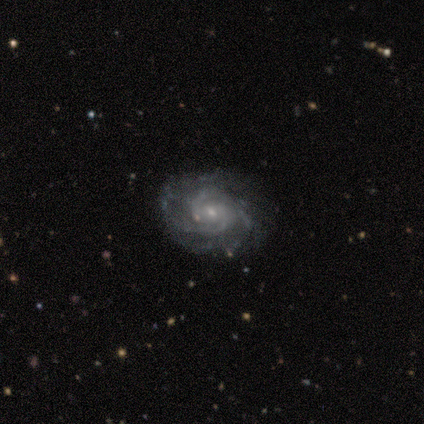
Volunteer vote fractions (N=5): A featured or disk galaxy (100%) with a weak bar (40%, tied with no), 2 (40%, tied with 4) tight (60%) spiral arms (100%) and a small central bulge (100%).

Vote fractions:
- Smooth or featured? featured or disk: 100% / smooth: 0% / star or artifact: 0%
- Edge-on disk? no: 100% / yes: 0%
- Bar? weak: 40% (tied) / no: 40% (tied) / strong: 20%
- Spiral arms? yes: 100% / no: 0%
- Spiral winding? tight: 60% / medium: 40% / loose: 0%
- Spiral arm count? 2: 40% (tied) / 4: 40% (tied) / more than 4: 20% / 1: 0% / 3: 0% / can't tell: 0%
- Bulge size? small: 100% / dominant: 0% / large: 0% / moderate: 0% / none: 0%
- Merging? none: 80% / minor disturbance: 20% / major disturbance: 0% / merger: 0%